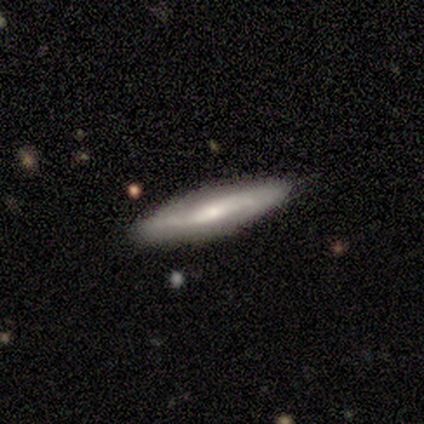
smooth_or_featured: smooth (p=0.80) [alt: featured or disk p=0.20]
how_rounded: cigar-shaped (p=1.00)
merging: none (p=1.00)